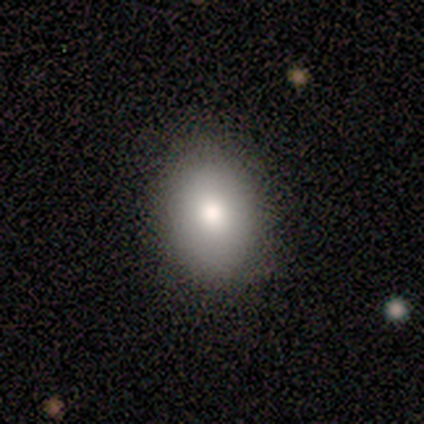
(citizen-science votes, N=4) Volunteers were most divided on "how rounded": in between: 75%, round: 25%, cigar-shaped: 0%. More confident: smooth or featured — smooth (100%); merging — none (100%).